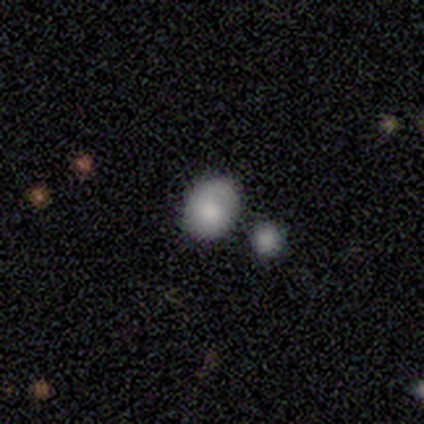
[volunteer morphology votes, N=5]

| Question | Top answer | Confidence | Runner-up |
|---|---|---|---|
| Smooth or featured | smooth | 80% | featured or disk (20%) |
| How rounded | round | 75% | in between (25%) |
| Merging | none | 60% | major disturbance (20%) |